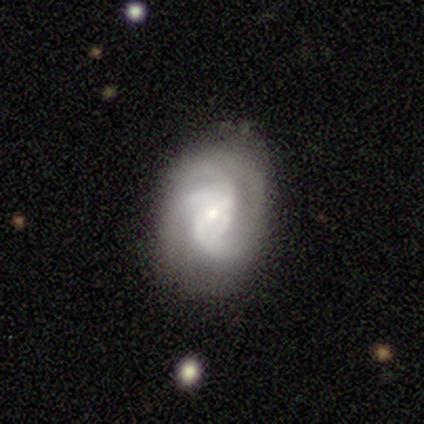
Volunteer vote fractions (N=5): This is clearly a featured or disk galaxy (100%). It is clearly not viewed edge-on (100%). Bar: likely no (60%). Spiral arm pattern: clearly yes (100%). Spiral arm count: clearly can't tell (80%). Spiral winding: marginally medium (40%, tied with loose). Central bulge: clearly small (100%). Merging: clearly none (80%).